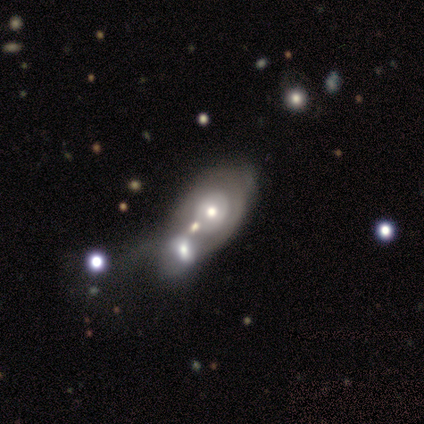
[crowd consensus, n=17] smooth_or_featured: featured or disk (p=0.76) [alt: smooth p=0.18]
disk_edge_on: no (p=1.00)
bar: no (p=1.00)
has_spiral_arms: no (p=0.54) [alt: yes p=0.46]
bulge_size: moderate (p=0.77) [alt: large p=0.15]
merging: merger (p=0.56) [alt: minor disturbance p=0.31]